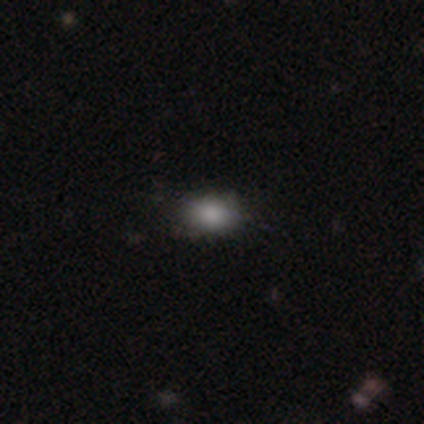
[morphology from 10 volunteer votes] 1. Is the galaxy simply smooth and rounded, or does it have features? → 90% smooth, 10% star or artifact, 0% featured or disk.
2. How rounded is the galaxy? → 100% in between, 0% round, 0% cigar-shaped.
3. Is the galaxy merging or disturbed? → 89% none, 11% minor disturbance, 0% major disturbance, 0% merger.